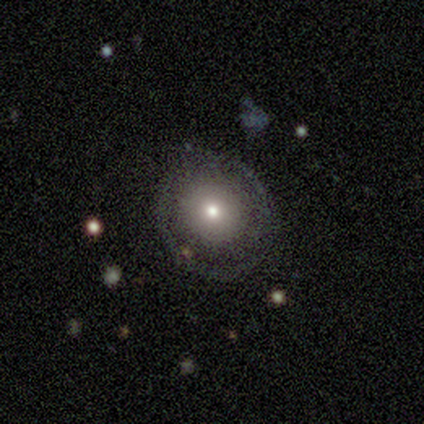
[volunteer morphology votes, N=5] Smooth or featured? featured or disk (80%)
Edge-on disk? no (100%)
Bar? no (75%)
Spiral arms? yes (50%, tied with no)
Spiral winding? tight (50%, tied with medium)
Spiral arm count? 2 (50%, tied with can't tell)
Bulge size? moderate (100%)
Merging? none (80%)